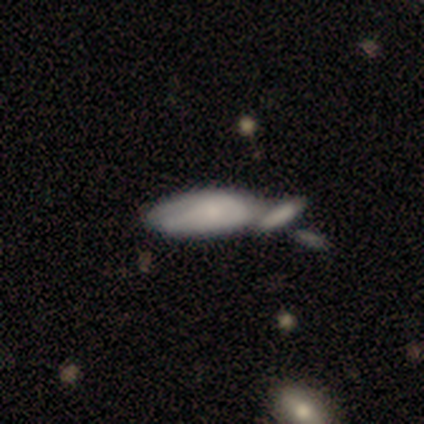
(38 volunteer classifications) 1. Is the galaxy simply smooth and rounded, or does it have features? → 74% smooth, 16% featured or disk, 11% star or artifact.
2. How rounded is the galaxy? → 64% in between, 36% cigar-shaped, 0% round.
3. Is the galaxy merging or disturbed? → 53% merger, 35% none, 9% minor disturbance, 3% major disturbance.